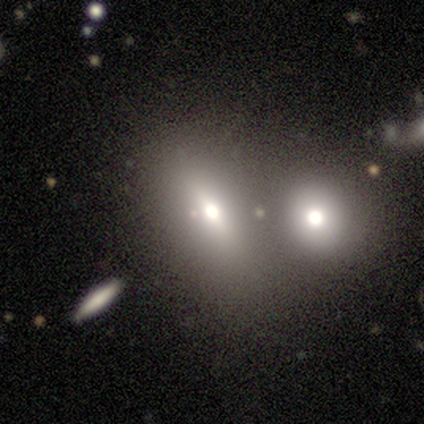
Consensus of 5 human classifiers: This is likely a smooth galaxy (60%). How rounded: clearly in between (100%). Merging: likely none (67%).